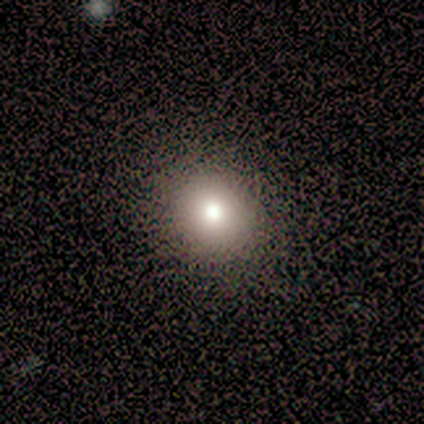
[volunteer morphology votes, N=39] This appears to be a smooth galaxy with no disk features (82%) that is round (84%). Merging: none (68%).